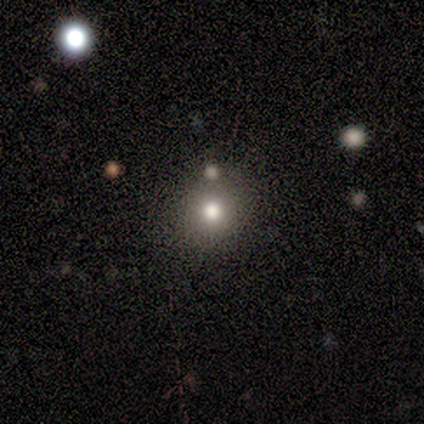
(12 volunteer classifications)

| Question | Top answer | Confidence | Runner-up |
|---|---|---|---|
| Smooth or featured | smooth | 67% | star or artifact (25%) |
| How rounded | round | 88% | in between (12%) |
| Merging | none | 89% | merger (11%) |